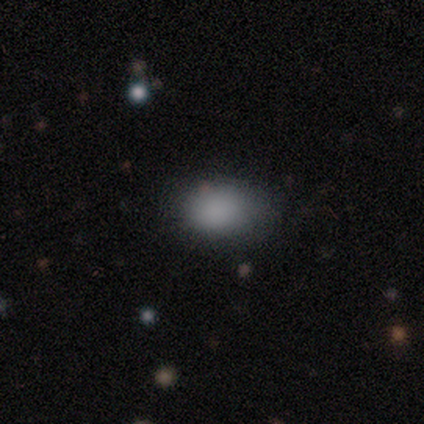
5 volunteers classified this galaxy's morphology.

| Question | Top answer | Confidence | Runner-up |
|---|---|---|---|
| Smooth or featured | smooth | 60% | featured or disk (20%) |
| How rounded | in between | 67% | round (33%) |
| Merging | none | 100% | — |